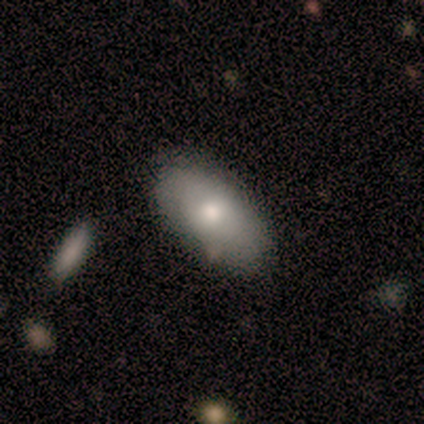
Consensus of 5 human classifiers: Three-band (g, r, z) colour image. It shows a smooth galaxy with no disk features (80%) that is in between round and cigar-shaped (75%). Merging: none (80%).